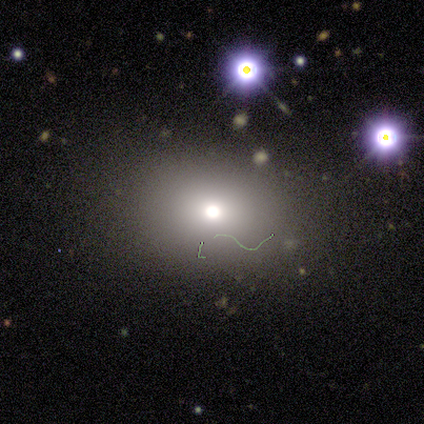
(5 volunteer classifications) smooth_or_featured: smooth (p=0.60) [alt: featured or disk p=0.40]
how_rounded: round (p=0.67) [alt: in between p=0.33]
merging: none (p=0.80) [alt: major disturbance p=0.20]